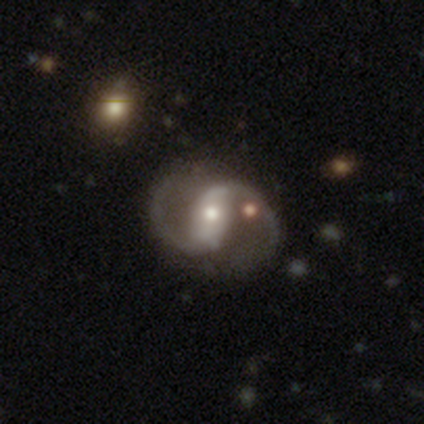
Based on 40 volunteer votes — Smooth or featured: featured or disk — 98% (star or artifact — 2%)
Edge-on disk: no — 90% (yes — 10%)
Bar: strong — 60% (weak — 26%)
Spiral arms: yes — 100%
Spiral winding: medium — 71% (loose — 29%)
Spiral arm count: 2 — 97% (can't tell — 3%)
Bulge size: moderate — 54% (small — 34%)
Merging: none — 74% (minor disturbance — 13%)